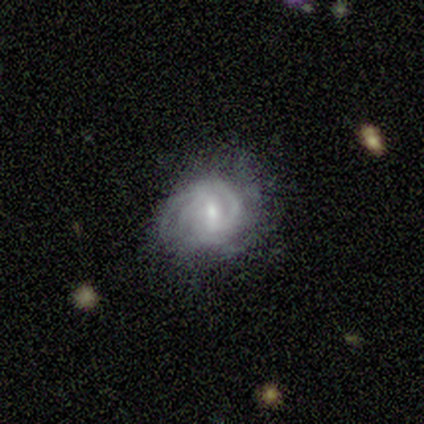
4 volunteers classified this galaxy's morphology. A featured or disk galaxy (75%) with a weak bar (67%), 3 (67%) tight (67%) spiral arms (100%) and a moderate central bulge (67%). Merging: major disturbance (50%).